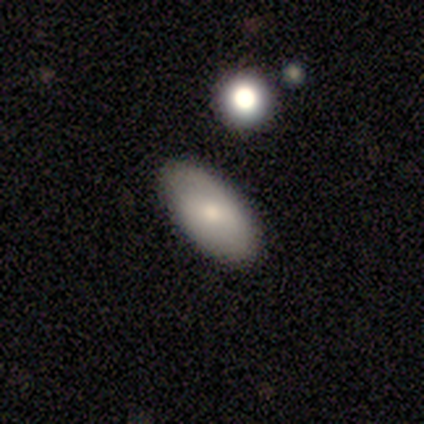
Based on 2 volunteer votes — Smooth or featured: smooth — 50% (tied with featured or disk — 50%)
How rounded: in between — 100%
Merging: none — 100%